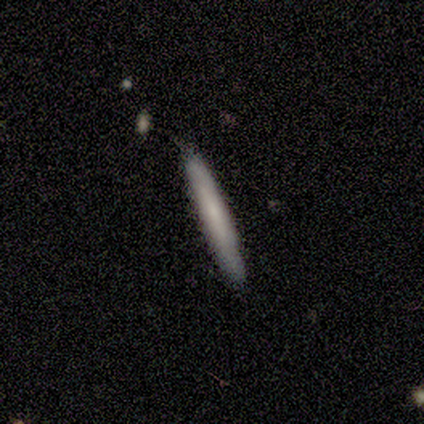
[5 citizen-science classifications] Smooth or featured?
  - featured or disk: 60% *
  - smooth: 40%
  - star or artifact: 0%
Edge-on disk?
  - yes: 100% *
  - no: 0%
Edge-on bulge?
  - none: 100% *
  - boxy: 0%
  - rounded: 0%
Merging?
  - none: 100% *
  - minor disturbance: 0%
  - major disturbance: 0%
  - merger: 0%